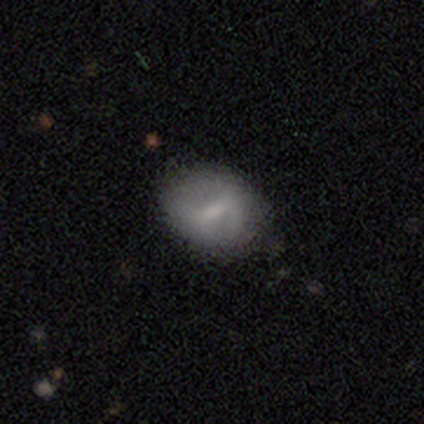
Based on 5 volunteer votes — smooth-or-featured: featured or disk: 60% | smooth: 40% | star or artifact: 0%
  disk-edge-on: no: 67% | yes: 33%
    bar: weak: 50% (tied) | no: 50% (tied) | strong: 0%
    has-spiral-arms: no: 100% | yes: 0%
    bulge-size: small: 100% | dominant: 0% | large: 0% | moderate: 0% | none: 0%
  merging: none: 80% | minor disturbance: 20% | major disturbance: 0% | merger: 0%